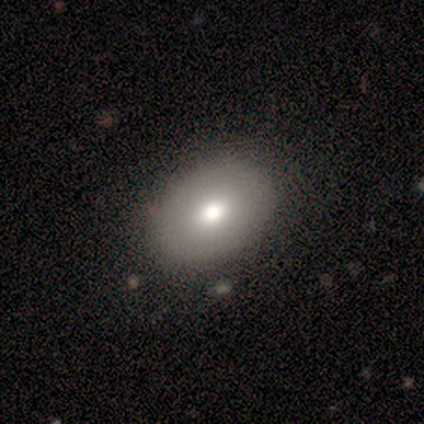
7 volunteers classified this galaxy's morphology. This is marginally a smooth galaxy (43%, tied with featured or disk). How rounded: clearly in between (100%). Merging: clearly none (83%).